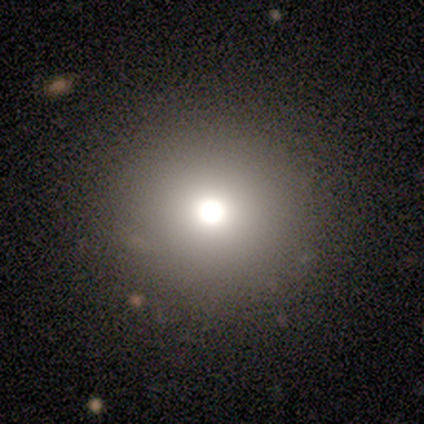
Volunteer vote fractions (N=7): Overall: smooth (71%). How rounded: round (100%). Merging: none (100%).